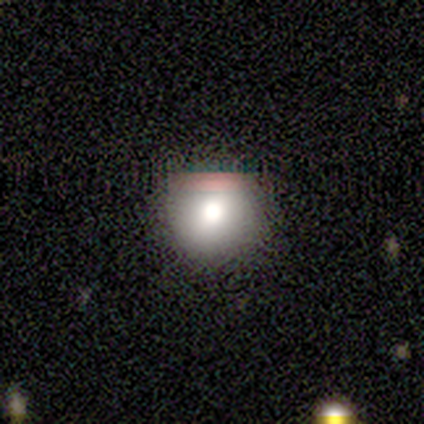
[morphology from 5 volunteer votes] This is clearly a smooth galaxy (100%). How rounded: clearly round (100%). Merging: clearly none (100%).